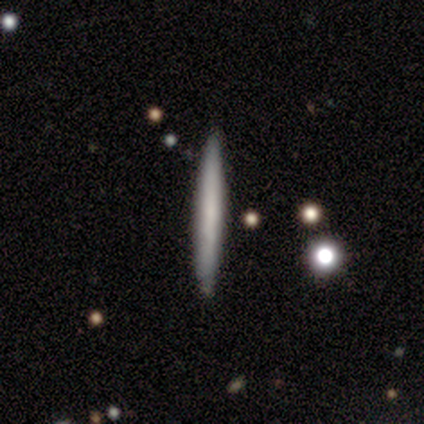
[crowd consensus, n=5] smooth_or_featured: smooth (p=0.60) [alt: featured or disk p=0.40]
how_rounded: cigar-shaped (p=1.00)
merging: none (p=1.00)